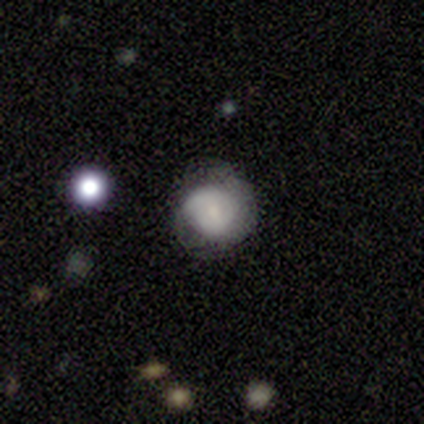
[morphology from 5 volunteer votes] This appears to be a smooth galaxy with no disk features (40%, tied with featured or disk) that is round (50%, tied with in between). Merging: none (75%).